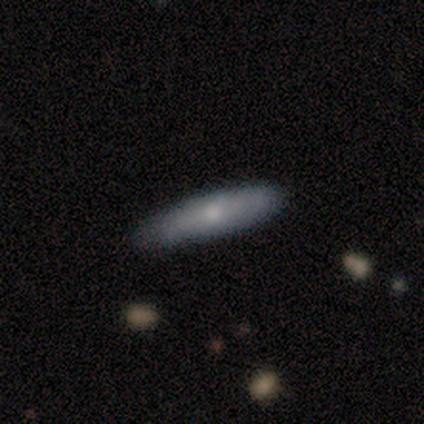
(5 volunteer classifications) Morphology: type=smooth (40%, tied with featured or disk); roundness=in between (50%, tied with cigar-shaped); merging=none (100%).